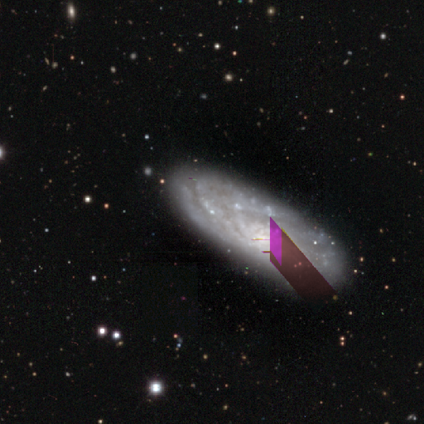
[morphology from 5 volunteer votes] A featured or disk galaxy (80%) with a weak bar (67%), tight (67%) spiral arms (100%) and a moderate central bulge (67%). Merging: none (100%).